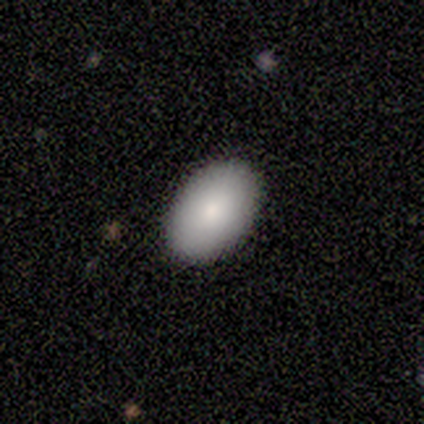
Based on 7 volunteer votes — Morphology: type=smooth (57%); roundness=in between (75%); merging=none (100%).